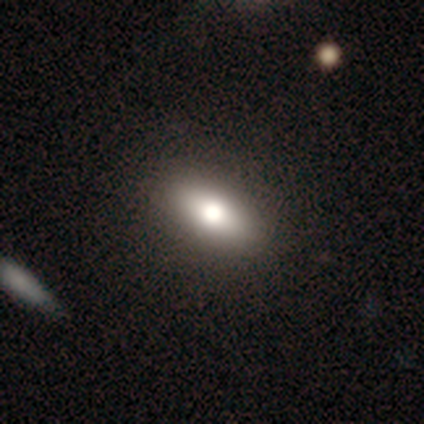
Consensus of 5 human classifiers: smooth-or-featured: smooth: 40% (tied) | featured or disk: 40% (tied) | star or artifact: 20%
  how-rounded: in between: 100% | round: 0% | cigar-shaped: 0%
  merging: none: 100% | minor disturbance: 0% | major disturbance: 0% | merger: 0%